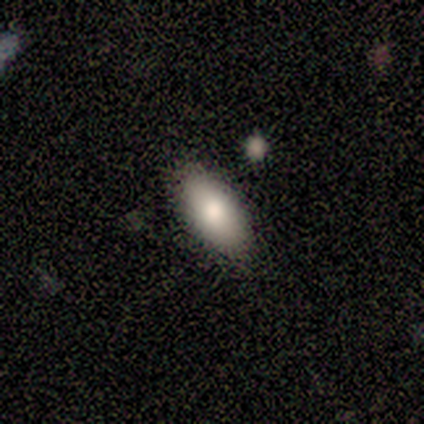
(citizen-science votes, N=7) Smooth or featured? 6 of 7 (86%) said smooth. How rounded? 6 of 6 (100%) said in between. Merging? 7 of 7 (100%) said none.